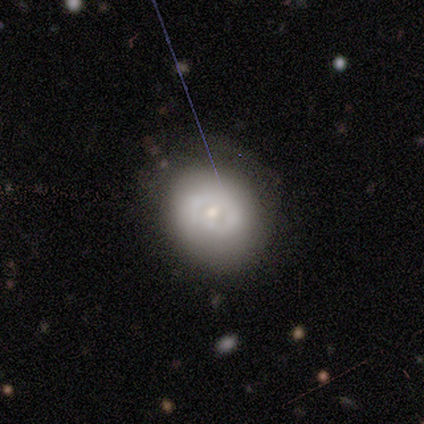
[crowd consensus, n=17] A featured or disk galaxy (82%) with no bar (100%), no spiral arms (86%) and a moderate central bulge (43%, tied with small). Merging: none (76%).